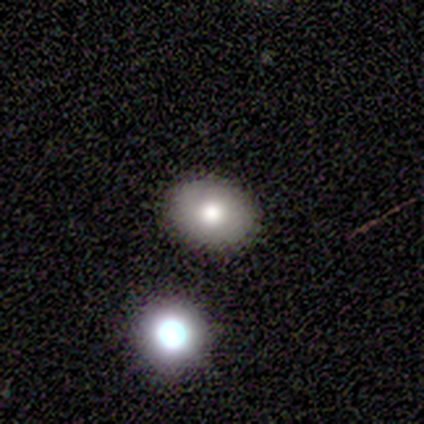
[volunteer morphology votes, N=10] Smooth or featured? smooth (80%)
How rounded? in between (88%)
Merging? none (100%)